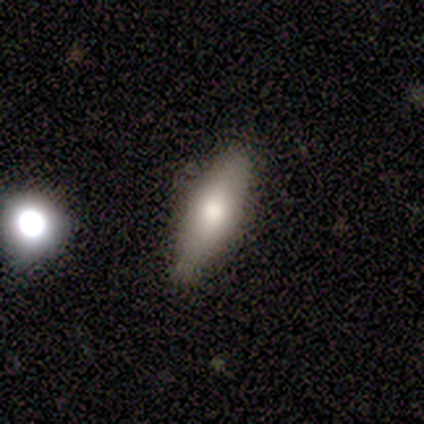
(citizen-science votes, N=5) A smooth galaxy with no disk features (100%) that is cigar-shaped (80%). Merging: none (60%).